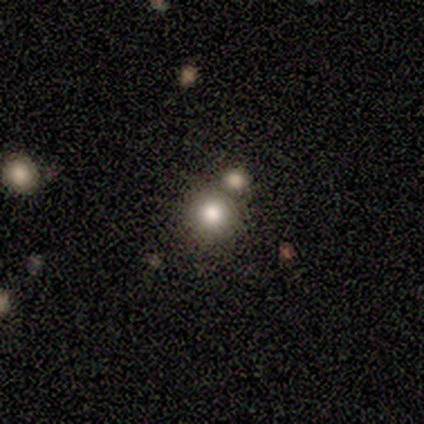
smooth_or_featured: smooth (p=0.60) [alt: featured or disk p=0.20]
how_rounded: round (p=1.00)
merging: none (p=0.75) [alt: minor disturbance p=0.25]